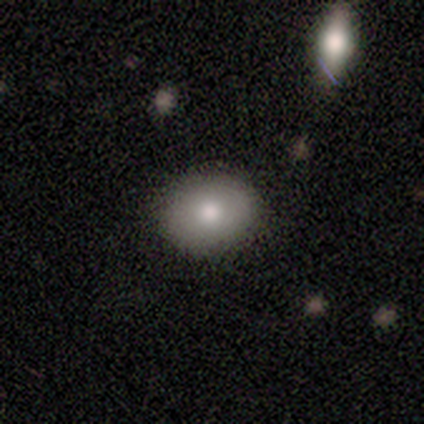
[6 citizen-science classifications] smooth-or-featured: smooth: 100% | featured or disk: 0% | star or artifact: 0%
  how-rounded: round: 67% | in between: 33% | cigar-shaped: 0%
  merging: none: 83% | minor disturbance: 17% | major disturbance: 0% | merger: 0%